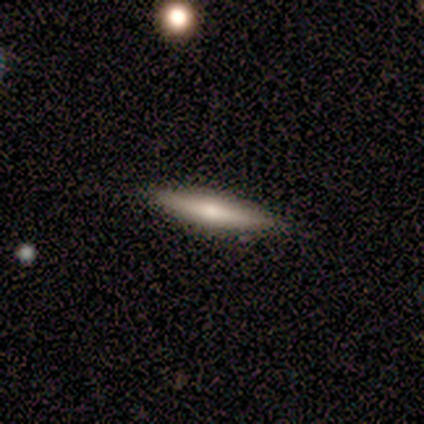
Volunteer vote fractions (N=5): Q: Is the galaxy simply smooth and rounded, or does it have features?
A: smooth — 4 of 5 (80%).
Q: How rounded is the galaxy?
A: cigar-shaped — 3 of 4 (75%).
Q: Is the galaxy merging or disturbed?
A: none — 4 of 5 (80%).